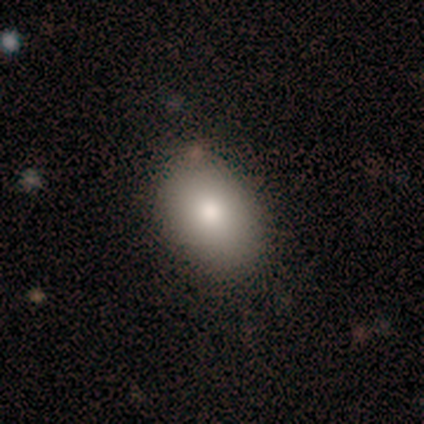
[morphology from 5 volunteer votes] This appears to be a smooth galaxy with no disk features (80%) that is in between round and cigar-shaped (75%). Merging: none (80%).